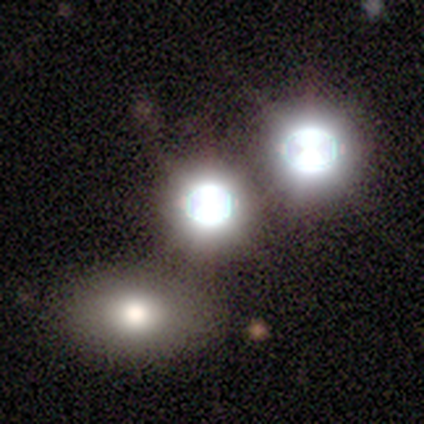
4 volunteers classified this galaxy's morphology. smooth 50%, featured or disk 25%, star or artifact 25%. Down the decision tree: how rounded — round (50%, tied with in between); merging — none (100%).